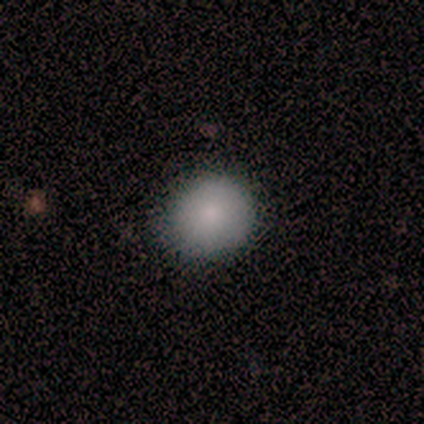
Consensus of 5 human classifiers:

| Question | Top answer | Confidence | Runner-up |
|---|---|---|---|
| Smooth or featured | smooth | 100% | — |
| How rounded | round | 100% | — |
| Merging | none | 80% | minor disturbance (20%) |